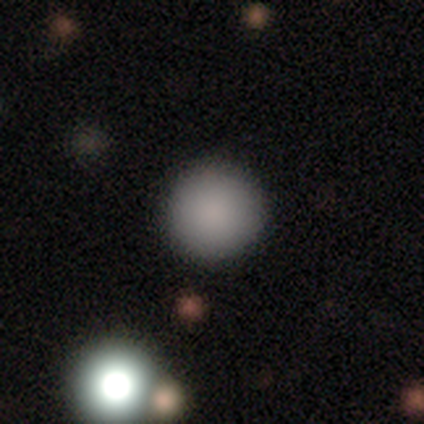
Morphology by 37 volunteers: Smooth or featured? 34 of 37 (92%) said smooth. How rounded? 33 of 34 (97%) said round. Merging? 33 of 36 (92%) said none.